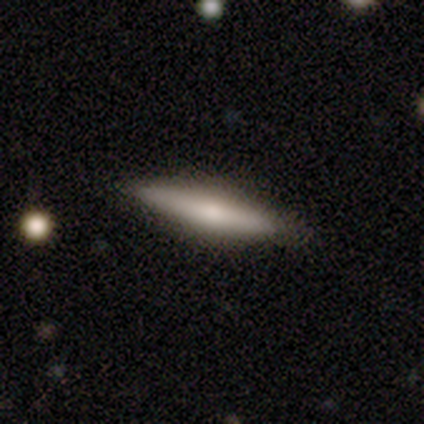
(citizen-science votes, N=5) A featured or disk galaxy (60%) viewed edge-on (67%) with no central bulge (50%, tied with rounded).

Vote fractions:
- Smooth or featured? featured or disk: 60% / smooth: 40% / star or artifact: 0%
- Edge-on disk? yes: 67% / no: 33%
- Edge-on bulge? none: 50% (tied) / rounded: 50% (tied) / boxy: 0%
- Merging? none: 100% / minor disturbance: 0% / major disturbance: 0% / merger: 0%